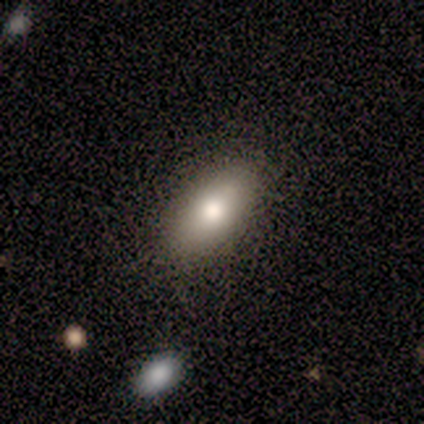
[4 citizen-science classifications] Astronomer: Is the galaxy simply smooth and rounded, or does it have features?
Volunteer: smooth — 100%.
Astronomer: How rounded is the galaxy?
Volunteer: in between — 100%.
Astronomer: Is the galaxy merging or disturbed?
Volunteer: none — 100%.